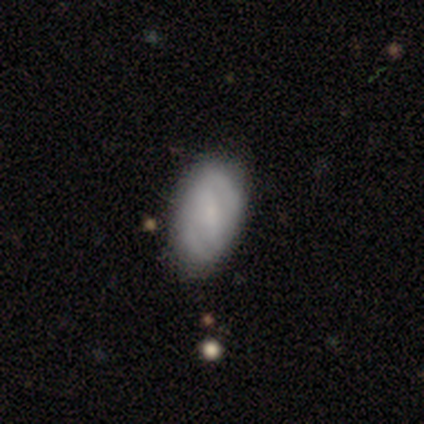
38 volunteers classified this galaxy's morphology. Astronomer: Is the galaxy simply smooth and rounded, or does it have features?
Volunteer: smooth — 55% (runner-up: featured or disk, 39%).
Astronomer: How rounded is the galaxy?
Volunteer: in between — 95%.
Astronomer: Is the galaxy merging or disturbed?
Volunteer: none — 56%.